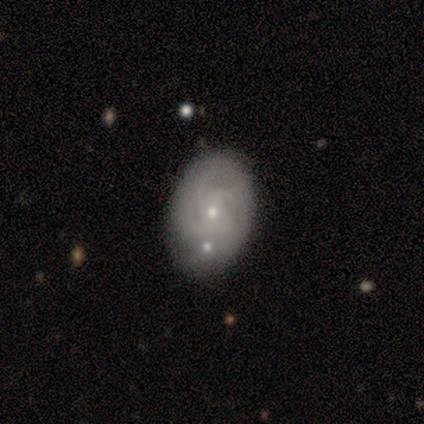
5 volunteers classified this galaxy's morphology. A smooth galaxy with no disk features (60%) that is in between round and cigar-shaped (100%). Merging: none (40%, tied with minor disturbance).